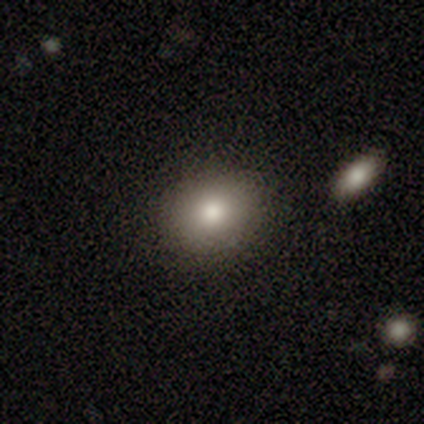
Volunteers were most divided on "smooth or featured": smooth: 75%, featured or disk: 25%, star or artifact: 0%. More confident: how rounded — round (100%); merging — none (100%).